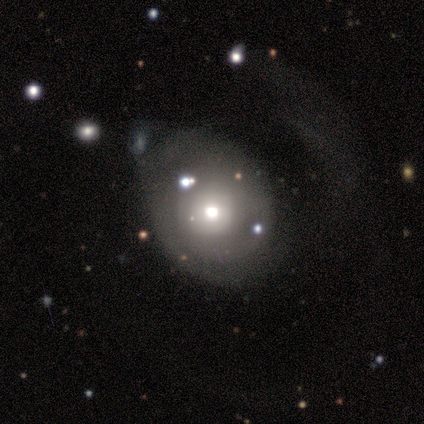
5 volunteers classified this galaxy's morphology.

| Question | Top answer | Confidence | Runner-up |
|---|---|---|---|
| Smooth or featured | featured or disk | 80% | smooth (20%) |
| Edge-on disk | no | 100% | — |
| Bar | no | 100% | — |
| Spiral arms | no | 75% | yes (25%) |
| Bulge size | moderate | 100% | — |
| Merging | major disturbance | 60% | none (20%) |